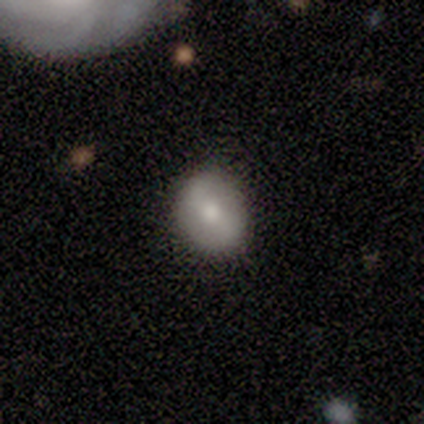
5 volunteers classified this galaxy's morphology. Q: Smooth or featured?
A: smooth (60%); runner-up: featured or disk (40%)
Q: How rounded?
A: in between (67%); runner-up: round (33%)
Q: Merging?
A: none (80%); runner-up: minor disturbance (20%)